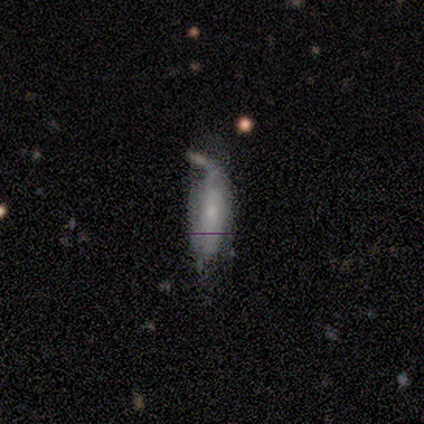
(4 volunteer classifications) This appears to be a smooth galaxy with no disk features (75%) that is in between round and cigar-shaped (100%). Merging: minor disturbance (75%).